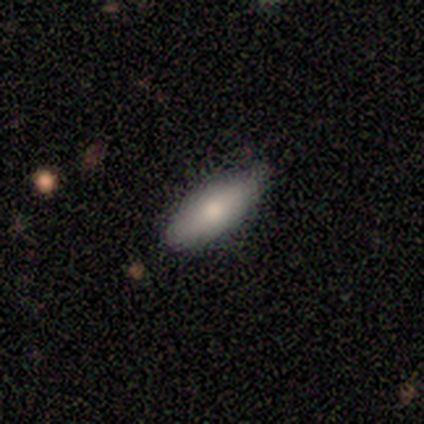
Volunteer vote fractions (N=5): Morphology: type=smooth (80%); roundness=in between (75%); merging=none (100%).